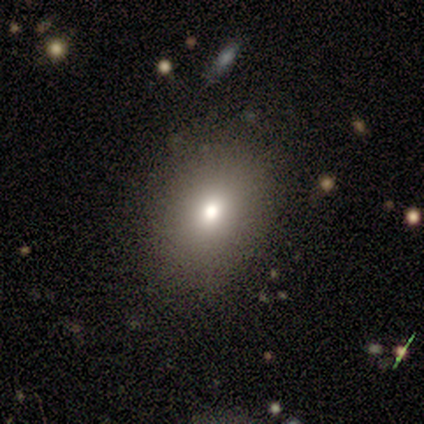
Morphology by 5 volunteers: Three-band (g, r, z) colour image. It shows a smooth galaxy with no disk features (60%) that is in between round and cigar-shaped (67%). Merging: none (100%).